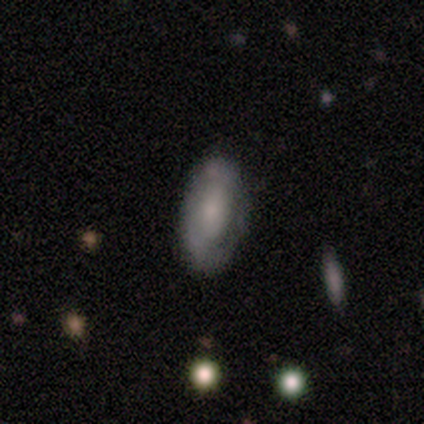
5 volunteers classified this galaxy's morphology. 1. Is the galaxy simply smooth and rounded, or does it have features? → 80% smooth, 20% featured or disk, 0% star or artifact.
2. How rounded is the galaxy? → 100% in between, 0% round, 0% cigar-shaped.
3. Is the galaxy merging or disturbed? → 40% none (tied), 40% minor disturbance (tied), 20% major disturbance, 0% merger.